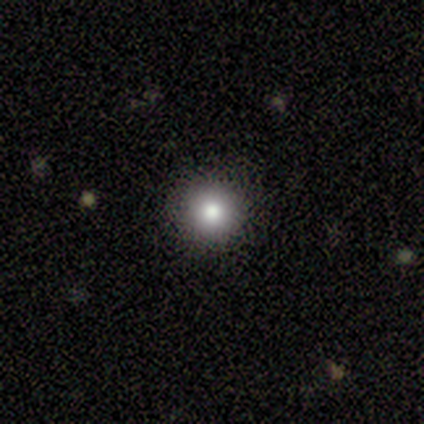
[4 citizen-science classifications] Morphology: type=smooth (100%); roundness=round (100%); merging=none (100%).